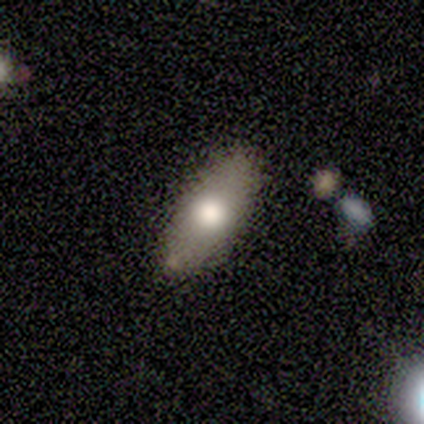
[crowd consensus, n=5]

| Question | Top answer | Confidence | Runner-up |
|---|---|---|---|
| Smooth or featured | smooth | 40% | tied: star or artifact (40%) |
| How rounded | in between | 100% | — |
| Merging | none | 67% | minor disturbance (33%) |